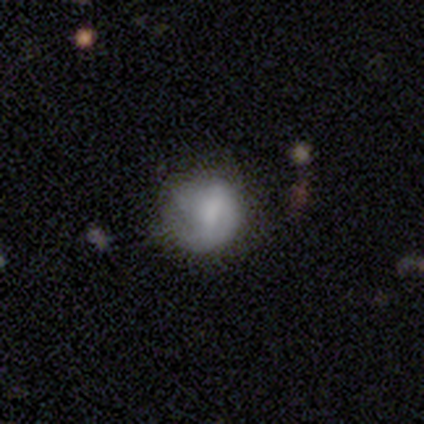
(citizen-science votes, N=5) Overall: smooth (80%). How rounded: round (100%). Merging: none (40%, tied with minor disturbance).